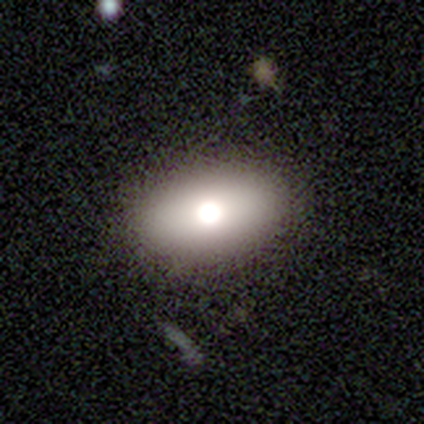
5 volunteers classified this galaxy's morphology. This is likely a smooth galaxy (60%). How rounded: likely in between (67%). Merging: clearly none (80%).